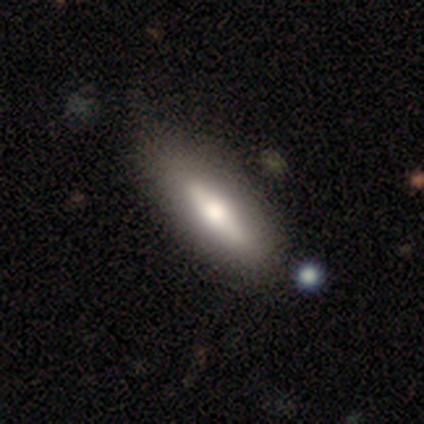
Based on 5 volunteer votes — A smooth galaxy with no disk features (60%) that is in between round and cigar-shaped (67%). Merging: none (100%).